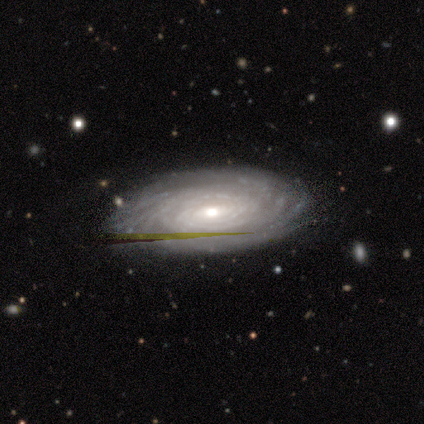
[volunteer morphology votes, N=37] smooth-or-featured: featured or disk: 89% | smooth: 5% | star or artifact: 5%
  disk-edge-on: no: 94% | yes: 6%
    bar: no: 48% | weak: 42% | strong: 10%
    has-spiral-arms: yes: 100% | no: 0%
      spiral-winding: tight: 74% | medium: 19% | loose: 6%
      spiral-arm-count: can't tell: 42% | more than 4: 29% | 4: 16% | 3: 10% | 2: 3% | 1: 0%
    bulge-size: moderate: 58% | small: 35% | large: 3% | none: 3% | dominant: 0%
  merging: none: 91% | minor disturbance: 6% | major disturbance: 3% | merger: 0%